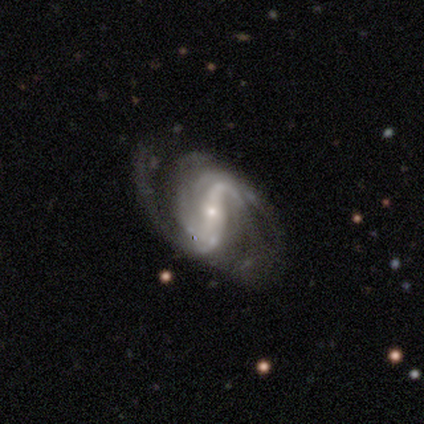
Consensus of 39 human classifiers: featured or disk 92%, smooth 5%, star or artifact 3%. Down the decision tree: edge-on disk — no (97%); bar — strong (49%); spiral arms — yes (97%); spiral arm count — 2 (56%); spiral winding — medium (59%); bulge size — small (83%); merging — none (61%).